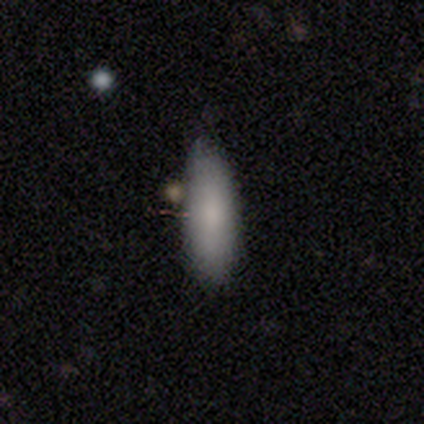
Smooth or featured? 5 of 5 (100%) said smooth. How rounded? 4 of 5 (80%) said cigar-shaped. Merging? 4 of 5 (80%) said none.